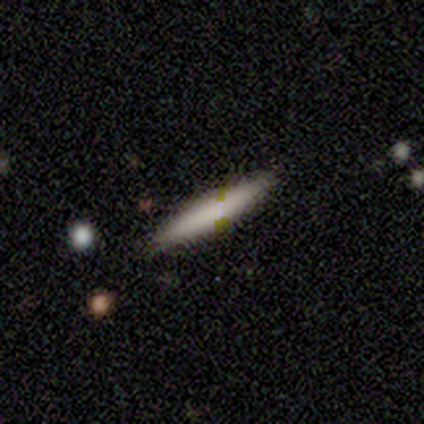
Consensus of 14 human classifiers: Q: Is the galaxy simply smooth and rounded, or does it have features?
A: smooth — 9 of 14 (64%).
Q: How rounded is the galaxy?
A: cigar-shaped — 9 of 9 (100%).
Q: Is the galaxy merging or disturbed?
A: none — 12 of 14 (86%).